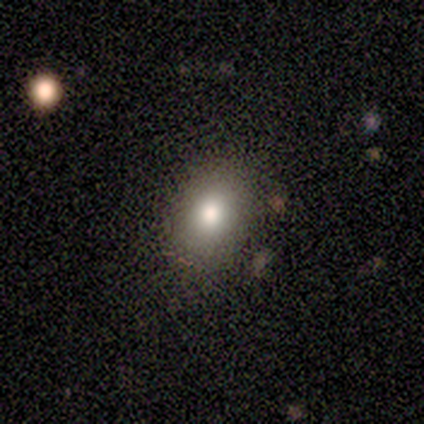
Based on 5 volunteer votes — A smooth galaxy with no disk features (60%) that is in between round and cigar-shaped (100%). Merging: none (40%, tied with minor disturbance).